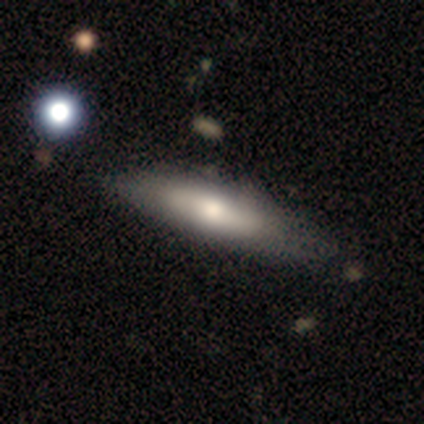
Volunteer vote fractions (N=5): Morphology: type=smooth (100%); roundness=cigar-shaped (60%); merging=none (60%).